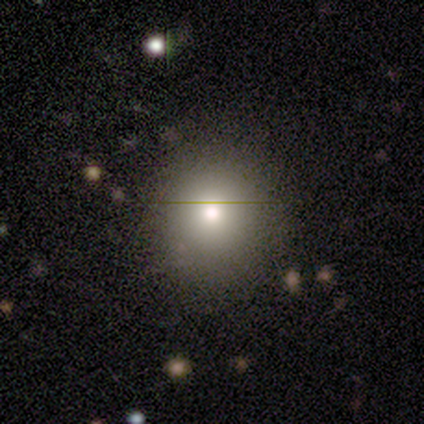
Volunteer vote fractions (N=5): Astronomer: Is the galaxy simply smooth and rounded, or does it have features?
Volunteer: smooth — 100%.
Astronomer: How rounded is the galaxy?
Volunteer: round — 100%.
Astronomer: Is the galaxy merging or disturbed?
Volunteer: none — 100%.